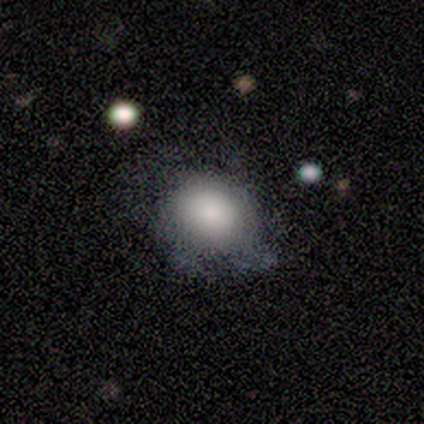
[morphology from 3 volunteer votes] A smooth galaxy with no disk features (100%) that is round (67%).

Vote fractions:
- Smooth or featured? smooth: 100% / featured or disk: 0% / star or artifact: 0%
- How rounded? round: 67% / in between: 33% / cigar-shaped: 0%
- Merging? minor disturbance: 67% / major disturbance: 33% / none: 0% / merger: 0%